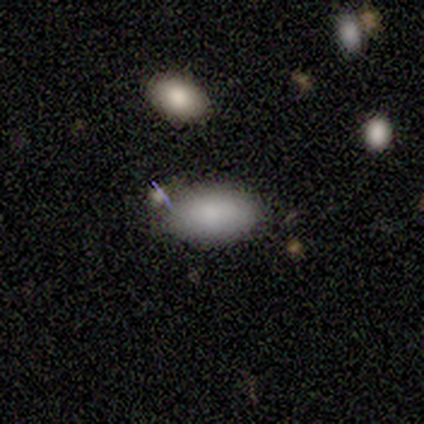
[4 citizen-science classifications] Smooth or featured?
  - smooth: 100% *
  - featured or disk: 0%
  - star or artifact: 0%
How rounded?
  - in between: 75% *
  - round: 25%
  - cigar-shaped: 0%
Merging?
  - none: 100% *
  - minor disturbance: 0%
  - major disturbance: 0%
  - merger: 0%